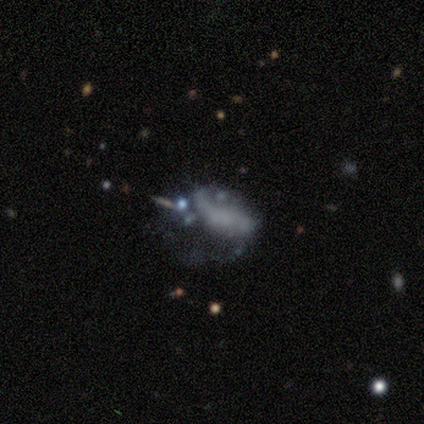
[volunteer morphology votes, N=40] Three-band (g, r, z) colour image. It shows a featured or disk galaxy (60%) with no bar (75%), no spiral arms (62%) and no central bulge (92%). Merging: major disturbance (39%).